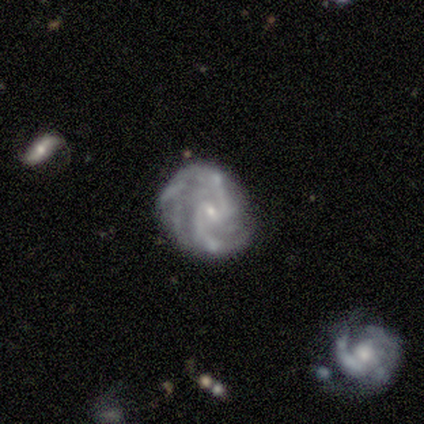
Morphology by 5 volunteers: Smooth or featured? featured or disk (80%)
Edge-on disk? no (100%)
Bar? weak (50%)
Spiral arms? yes (100%)
Spiral winding? loose (75%)
Spiral arm count? 2 (75%)
Bulge size? small (75%)
Merging? none (80%)